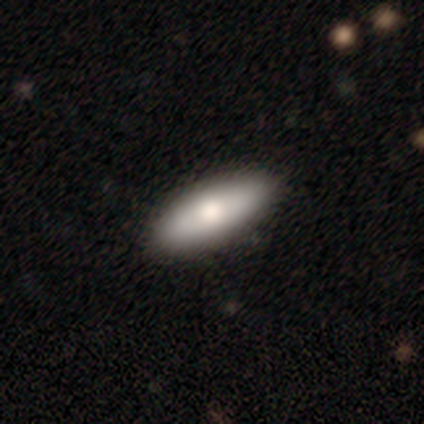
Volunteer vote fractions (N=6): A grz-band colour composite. It shows a featured or disk galaxy (50%) viewed edge-on (67%) with a rounded central bulge (100%). Merging: none (80%).